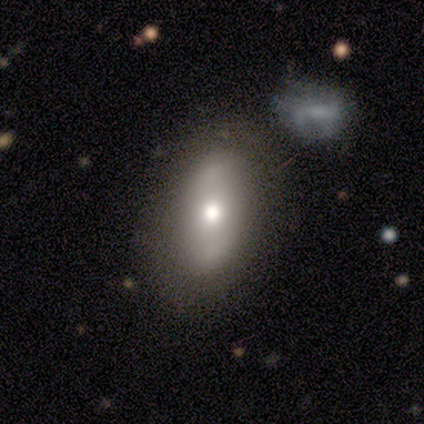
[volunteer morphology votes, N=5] This is likely a featured or disk galaxy (60%). It is likely not viewed edge-on (67%). Bar: clearly no (100%). Spiral arm pattern: possibly yes (50%, tied with no). Spiral arm count: clearly can't tell (100%). Spiral winding: clearly tight (100%). Central bulge: clearly moderate (100%). Merging: likely none (60%).